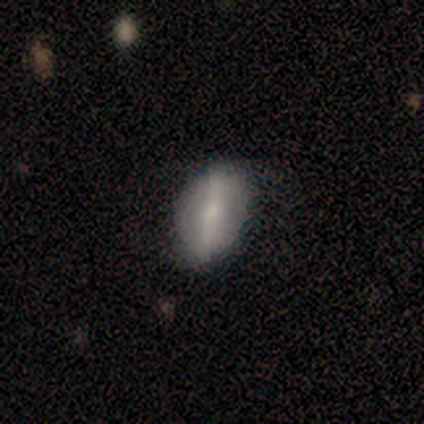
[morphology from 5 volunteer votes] Smooth or featured?
  - smooth: 60% *
  - featured or disk: 40%
  - star or artifact: 0%
How rounded?
  - in between: 100% *
  - round: 0%
  - cigar-shaped: 0%
Merging?
  - none: 80% *
  - major disturbance: 20%
  - minor disturbance: 0%
  - merger: 0%